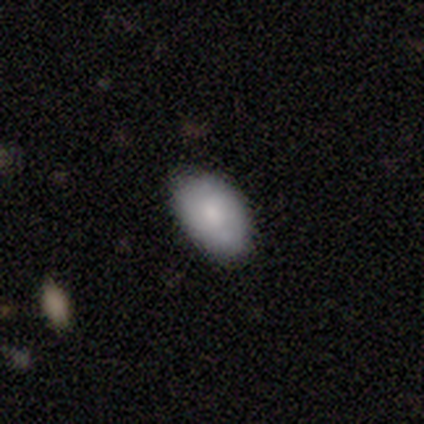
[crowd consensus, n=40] Q: Smooth or featured?
A: smooth (72%); runner-up: star or artifact (18%)
Q: How rounded?
A: in between (83%); runner-up: round (17%)
Q: Merging?
A: none (73%); runner-up: minor disturbance (18%)